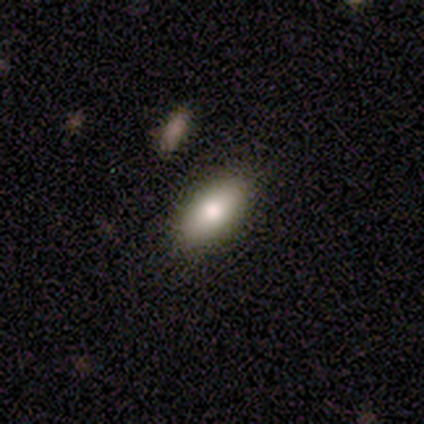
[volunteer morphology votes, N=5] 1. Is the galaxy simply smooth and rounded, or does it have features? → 60% featured or disk, 40% smooth, 0% star or artifact.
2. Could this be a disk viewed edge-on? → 100% no, 0% yes.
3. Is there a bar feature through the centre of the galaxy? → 100% no, 0% strong, 0% weak.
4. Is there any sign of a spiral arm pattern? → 100% no, 0% yes.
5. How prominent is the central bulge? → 67% small, 33% large, 0% dominant, 0% moderate, 0% none.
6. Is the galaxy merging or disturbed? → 80% none, 20% minor disturbance, 0% major disturbance, 0% merger.